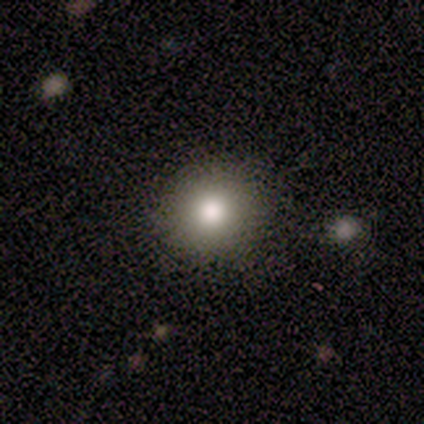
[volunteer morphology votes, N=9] smooth_or_featured: smooth (p=0.67) [alt: star or artifact p=0.22]
how_rounded: round (p=0.83) [alt: in between p=0.17]
merging: none (p=1.00)